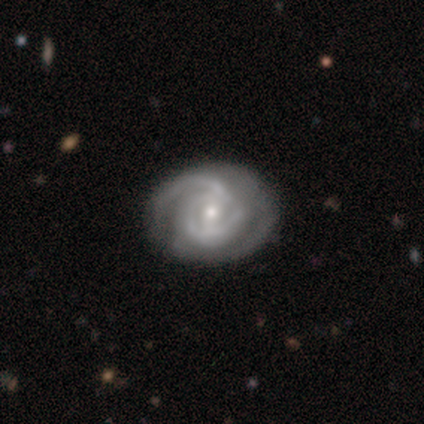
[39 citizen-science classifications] featured or disk 97%, smooth 3%, star or artifact 0%. Down the decision tree: edge-on disk — no (100%); bar — weak (50%); spiral arms — yes (95%); spiral arm count — 2 (56%); spiral winding — tight (58%); bulge size — moderate (66%); merging — none (51%).